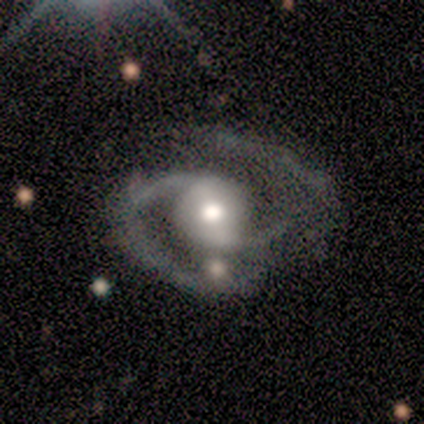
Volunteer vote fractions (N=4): Volunteers were most divided on "spiral winding": medium: 50%, tight: 25%, loose: 25%. More confident: smooth or featured — featured or disk (100%); edge-on disk — no (100%); spiral arms — yes (100%); spiral arm count — 2 (100%); bar — strong (75%); bulge size — moderate (75%); merging — none (75%).